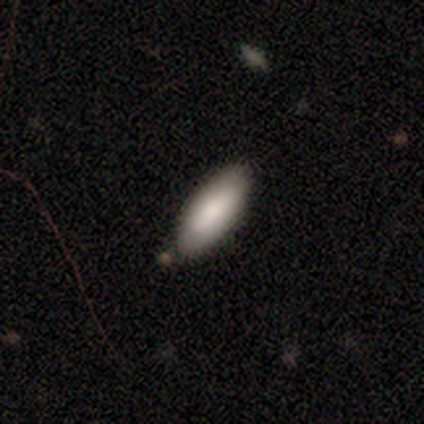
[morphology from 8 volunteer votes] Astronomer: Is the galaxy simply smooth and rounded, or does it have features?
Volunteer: smooth — 88%.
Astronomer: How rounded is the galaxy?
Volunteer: in between — 71%.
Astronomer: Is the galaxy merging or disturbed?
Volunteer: none — 100%.